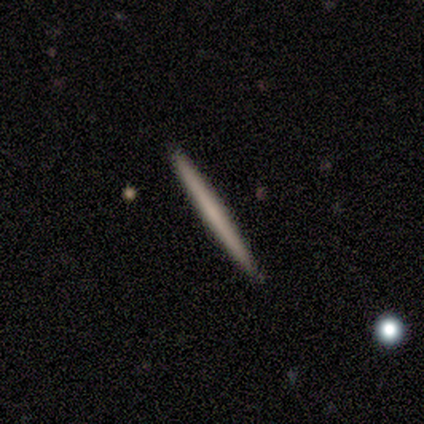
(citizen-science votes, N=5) Smooth or featured?
  - smooth: 80% *
  - featured or disk: 20%
  - star or artifact: 0%
How rounded?
  - cigar-shaped: 100% *
  - round: 0%
  - in between: 0%
Merging?
  - none: 100% *
  - minor disturbance: 0%
  - major disturbance: 0%
  - merger: 0%